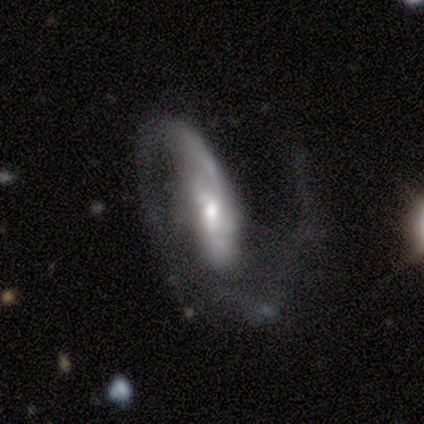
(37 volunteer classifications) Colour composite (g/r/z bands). It shows a featured or disk galaxy (84%) with no bar (59%), 2 (74%) loose (59%) spiral arms (100%) and a moderate central bulge (52%). Merging: none (43%, tied with major disturbance).